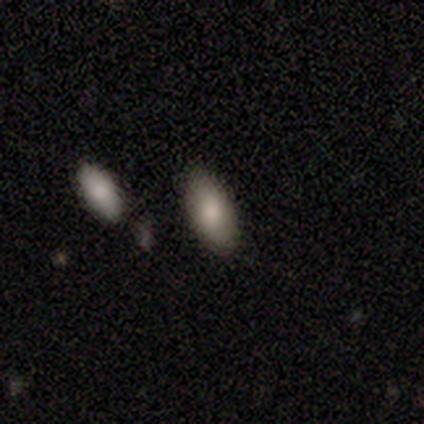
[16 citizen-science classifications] A smooth galaxy with no disk features (81%) that is in between round and cigar-shaped (92%). Merging: none (73%).